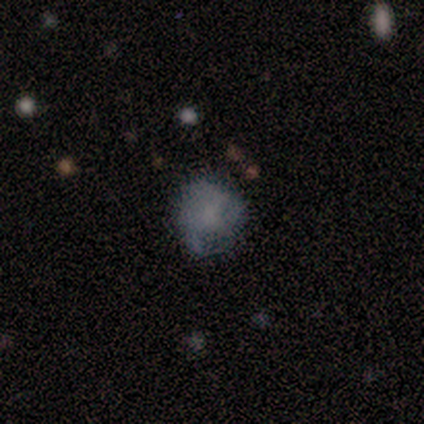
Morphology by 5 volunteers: Smooth or featured? smooth (40%, tied with featured or disk)
How rounded? round (100%)
Merging? major disturbance (50%)